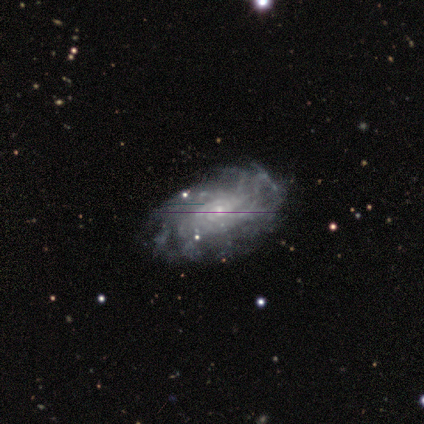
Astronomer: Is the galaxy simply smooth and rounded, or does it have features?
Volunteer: featured or disk — 100%.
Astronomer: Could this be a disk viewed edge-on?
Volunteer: no — 100%.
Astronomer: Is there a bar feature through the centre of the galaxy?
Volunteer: strong — 50%.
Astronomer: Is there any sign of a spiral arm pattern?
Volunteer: yes — 100%.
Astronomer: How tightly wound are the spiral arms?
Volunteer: tight — 75%.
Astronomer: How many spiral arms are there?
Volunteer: can't tell — 50%.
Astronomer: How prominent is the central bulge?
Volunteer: small — 75%.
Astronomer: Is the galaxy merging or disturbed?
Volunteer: none — 75%.